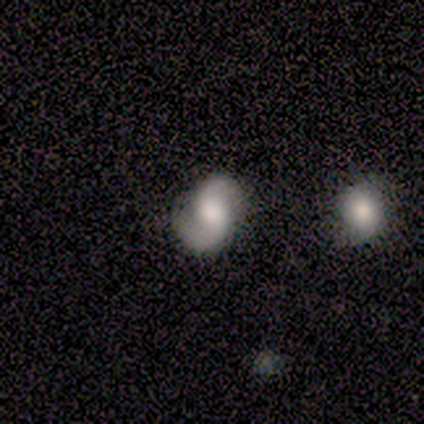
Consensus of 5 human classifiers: Overall: featured or disk (80%). Edge-on disk: no (100%). Bar: no (75%). Spiral arms: yes (100%). Spiral arm count: 2 (100%). Spiral winding: medium (75%). Bulge size: large (50%, tied with moderate). Merging: none (60%; minor disturbance 20%).